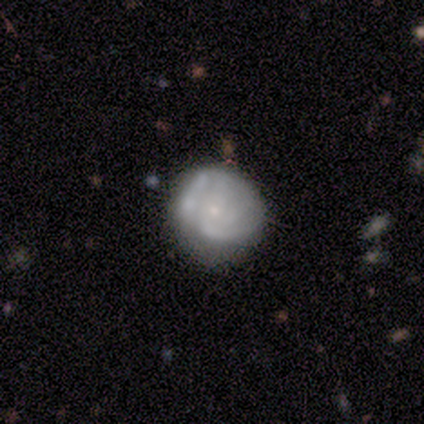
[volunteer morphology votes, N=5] Smooth or featured: smooth — 60% (featured or disk — 40%)
How rounded: round — 100%
Merging: none — 80% (minor disturbance — 20%)